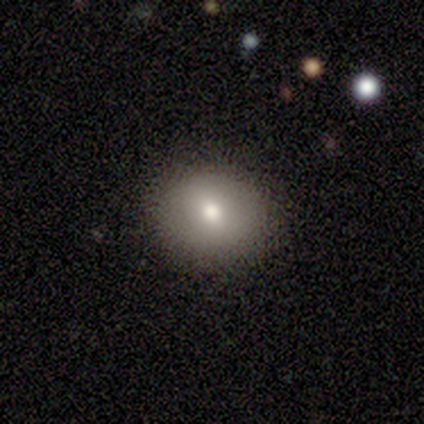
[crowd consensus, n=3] A smooth galaxy with no disk features (100%) that is round (67%).

Vote fractions:
- Smooth or featured? smooth: 100% / featured or disk: 0% / star or artifact: 0%
- How rounded? round: 67% / in between: 33% / cigar-shaped: 0%
- Merging? none: 67% / minor disturbance: 33% / major disturbance: 0% / merger: 0%